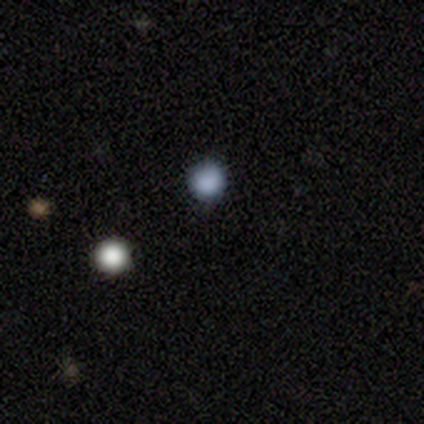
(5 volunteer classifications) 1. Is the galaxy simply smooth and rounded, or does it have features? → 100% smooth, 0% featured or disk, 0% star or artifact.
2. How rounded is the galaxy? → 100% round, 0% in between, 0% cigar-shaped.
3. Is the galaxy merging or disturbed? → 100% none, 0% minor disturbance, 0% major disturbance, 0% merger.